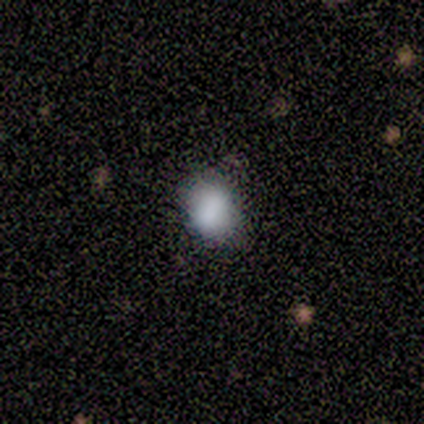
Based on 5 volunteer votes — Smooth or featured?
  - smooth: 60% *
  - featured or disk: 20%
  - star or artifact: 20%
How rounded?
  - in between: 67% *
  - round: 33%
  - cigar-shaped: 0%
Merging?
  - none: 50% *
  - minor disturbance: 25%
  - major disturbance: 25%
  - merger: 0%